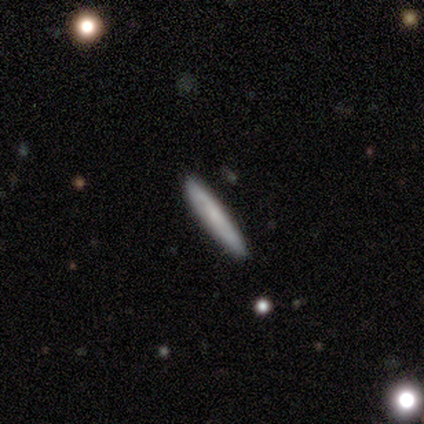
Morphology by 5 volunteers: type=smooth (60%); roundness=cigar-shaped (100%); merging=none (80%).